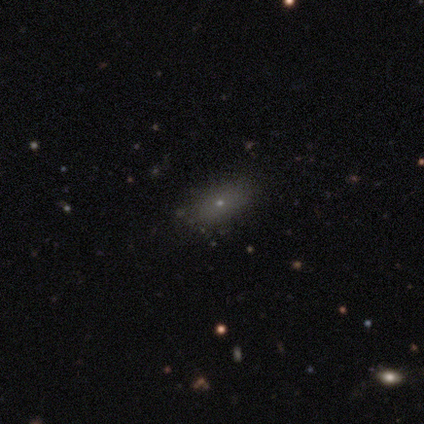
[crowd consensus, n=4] smooth_or_featured: smooth (p=0.75) [alt: featured or disk p=0.25]
how_rounded: in between (p=1.00)
merging: none (p=1.00)